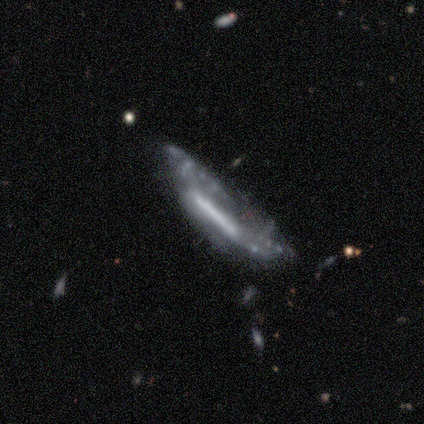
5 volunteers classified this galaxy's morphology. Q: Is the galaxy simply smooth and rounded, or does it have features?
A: featured or disk — 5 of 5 (100%).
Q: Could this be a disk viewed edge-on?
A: yes — 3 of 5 (60%).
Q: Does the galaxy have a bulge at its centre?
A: none — 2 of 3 (67%).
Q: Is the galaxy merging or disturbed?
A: none — 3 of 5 (60%).